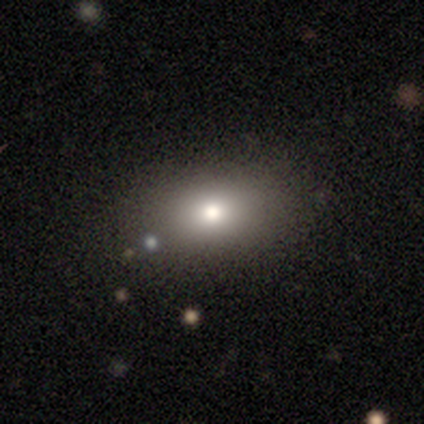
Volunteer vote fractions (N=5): smooth_or_featured: smooth (p=1.00)
how_rounded: in between (p=0.60) [alt: round p=0.40]
merging: none (p=0.60) [alt: major disturbance p=0.40]